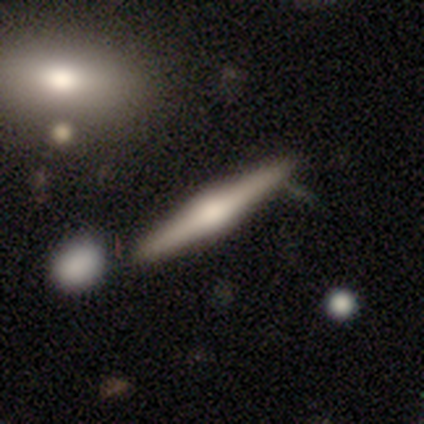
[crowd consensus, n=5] smooth-or-featured: featured or disk: 60% | smooth: 40% | star or artifact: 0%
  disk-edge-on: yes: 100% | no: 0%
    edge-on-bulge: rounded: 100% | boxy: 0% | none: 0%
  merging: none: 60% | minor disturbance: 40% | major disturbance: 0% | merger: 0%